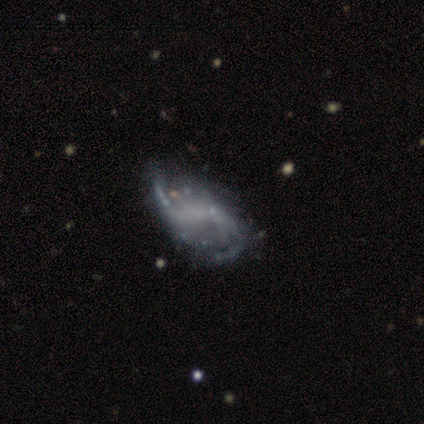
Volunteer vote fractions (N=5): This is clearly a featured or disk galaxy (80%). It is clearly not viewed edge-on (100%). Bar: possibly strong (50%, tied with no). Spiral arm pattern: clearly yes (100%). Spiral arm count: possibly 2 (50%, tied with can't tell). Spiral winding: clearly loose (100%). Central bulge: clearly none (100%). Merging: possibly none (50%).